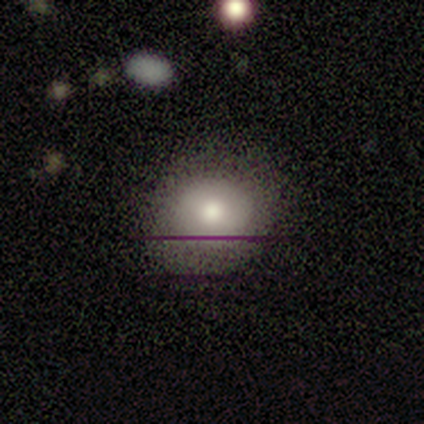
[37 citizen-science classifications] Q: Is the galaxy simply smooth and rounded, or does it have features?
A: smooth — 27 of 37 (73%).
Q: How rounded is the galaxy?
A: round — 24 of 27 (89%).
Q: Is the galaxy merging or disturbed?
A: none — 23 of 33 (70%).